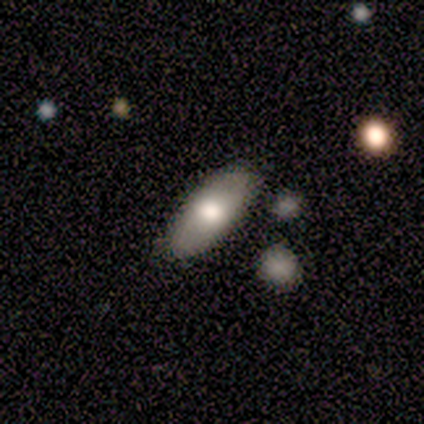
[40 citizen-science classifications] Overall: smooth (68%). How rounded: in between (85%). Merging: none (86%).